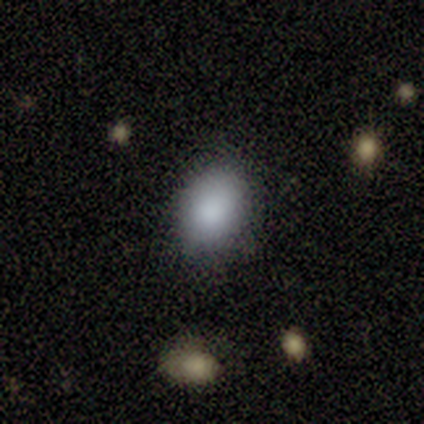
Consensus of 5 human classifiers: smooth_or_featured: smooth (p=0.60) [alt: featured or disk p=0.20]
how_rounded: in between (p=0.67) [alt: round p=0.33]
merging: none (p=1.00)